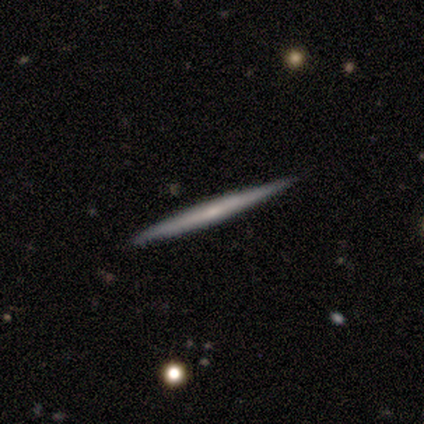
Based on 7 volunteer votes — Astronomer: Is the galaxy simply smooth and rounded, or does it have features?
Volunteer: featured or disk — 57% (runner-up: smooth, 43%).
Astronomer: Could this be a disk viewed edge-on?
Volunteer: yes — 100%.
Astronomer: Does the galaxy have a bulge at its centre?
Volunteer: none — 75%.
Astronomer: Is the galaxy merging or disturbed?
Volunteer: none — 100%.